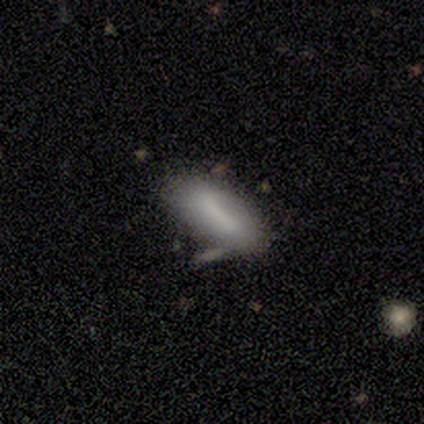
A smooth galaxy with no disk features (100%) that is in between round and cigar-shaped (80%).

Vote fractions:
- Smooth or featured? smooth: 100% / featured or disk: 0% / star or artifact: 0%
- How rounded? in between: 80% / cigar-shaped: 20% / round: 0%
- Merging? none: 80% / minor disturbance: 20% / major disturbance: 0% / merger: 0%